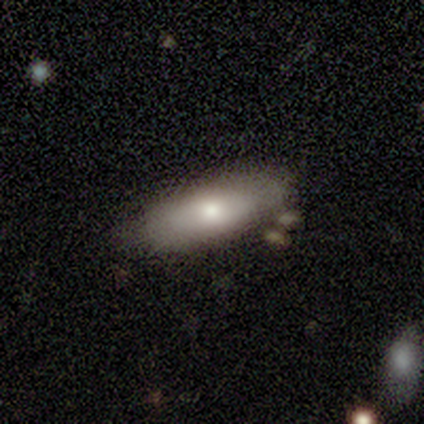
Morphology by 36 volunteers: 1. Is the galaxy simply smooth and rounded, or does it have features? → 64% smooth, 31% featured or disk, 6% star or artifact.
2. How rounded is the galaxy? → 78% in between, 22% cigar-shaped, 0% round.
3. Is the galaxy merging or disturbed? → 65% none, 18% minor disturbance, 15% merger, 3% major disturbance.